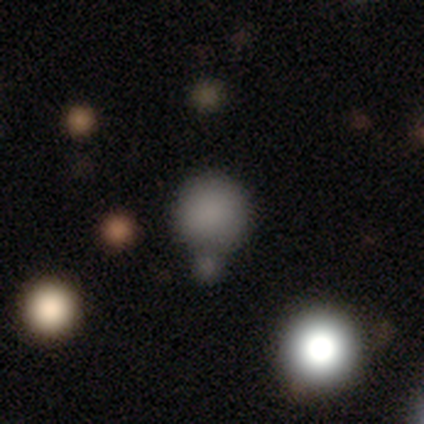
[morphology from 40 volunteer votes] A smooth galaxy with no disk features (80%) that is round (94%).

Vote fractions:
- Smooth or featured? smooth: 80% / star or artifact: 18% / featured or disk: 2%
- How rounded? round: 94% / in between: 6% / cigar-shaped: 0%
- Merging? none: 58% / minor disturbance: 24% / merger: 18% / major disturbance: 0%